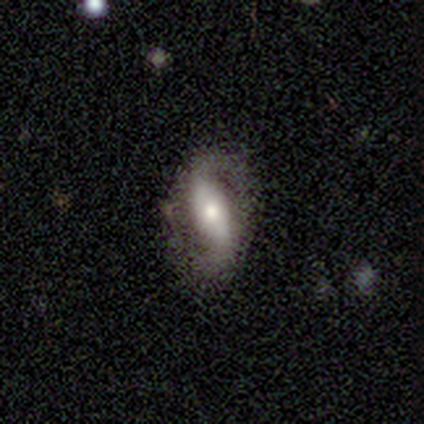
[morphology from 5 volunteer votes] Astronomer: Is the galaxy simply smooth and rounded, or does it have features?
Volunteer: featured or disk — 80%.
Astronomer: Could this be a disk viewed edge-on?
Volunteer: no — 100%.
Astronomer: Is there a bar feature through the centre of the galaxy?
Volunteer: strong — 50%.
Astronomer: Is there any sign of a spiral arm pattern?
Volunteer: yes — 100%.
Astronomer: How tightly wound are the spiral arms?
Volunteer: loose — 50%.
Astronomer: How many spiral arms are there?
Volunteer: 2 — 75%.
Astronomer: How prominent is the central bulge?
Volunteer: small — 50%.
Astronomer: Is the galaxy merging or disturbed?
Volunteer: none — 80%.